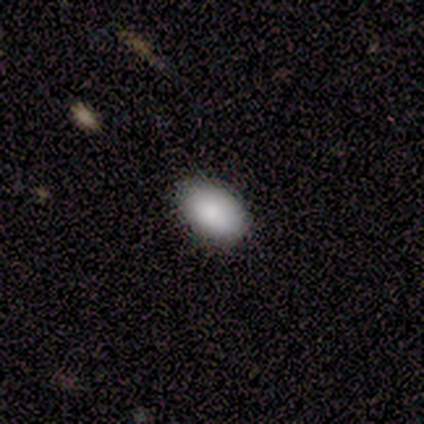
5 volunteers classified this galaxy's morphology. This appears to be a smooth galaxy with no disk features (100%) that is in between round and cigar-shaped (100%). Merging: none (100%).